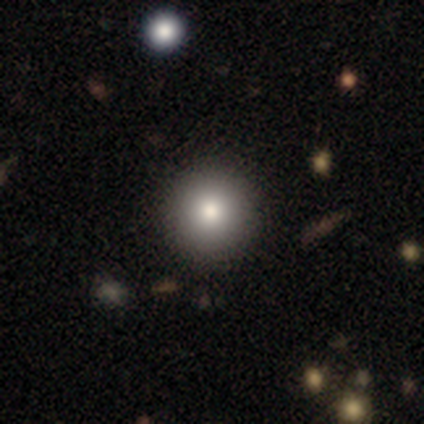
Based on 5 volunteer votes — smooth-or-featured: smooth: 60% | featured or disk: 40% | star or artifact: 0%
  how-rounded: round: 100% | in between: 0% | cigar-shaped: 0%
  merging: none: 100% | minor disturbance: 0% | major disturbance: 0% | merger: 0%